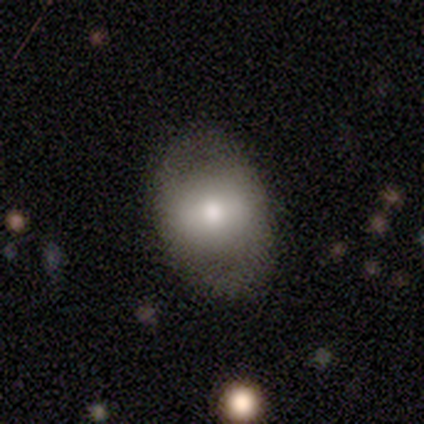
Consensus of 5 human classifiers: This is likely a smooth galaxy (60%). How rounded: clearly in between (100%). Merging: likely none (60%).